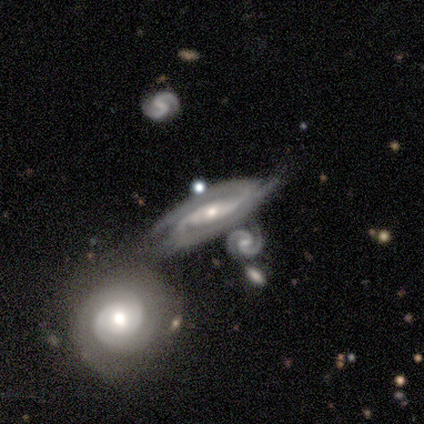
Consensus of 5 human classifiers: A featured or disk galaxy (100%) with no bar (60%), 2 (100%) tight (40%, tied with medium) spiral arms (100%) and a moderate central bulge (60%). Merging: none (40%, tied with minor disturbance).